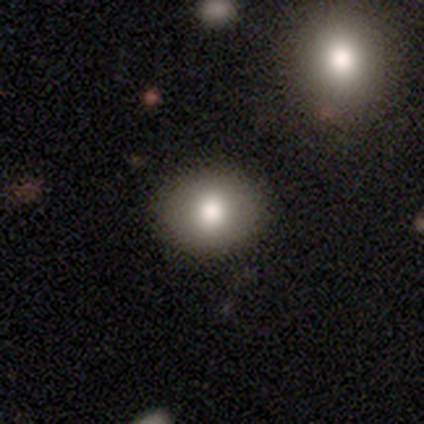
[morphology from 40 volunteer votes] Q: Smooth or featured?
A: smooth (88%); runner-up: featured or disk (10%)
Q: How rounded?
A: round (57%); runner-up: in between (43%)
Q: Merging?
A: none (87%); runner-up: minor disturbance (10%)